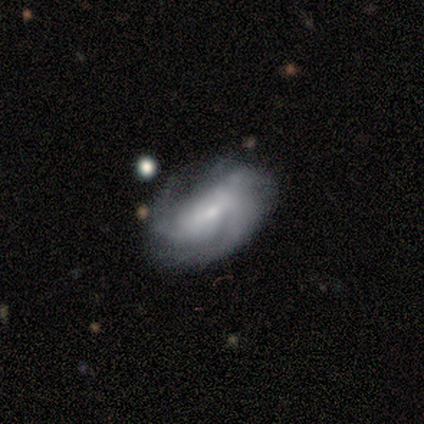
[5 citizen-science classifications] A featured or disk galaxy (60%) with no bar (100%), 1 (33%, tied with 3 and can't tell) medium (67%) spiral arms (100%) and a small central bulge (67%).

Vote fractions:
- Smooth or featured? featured or disk: 60% / smooth: 40% / star or artifact: 0%
- Edge-on disk? no: 100% / yes: 0%
- Bar? no: 100% / strong: 0% / weak: 0%
- Spiral arms? yes: 100% / no: 0%
- Spiral winding? medium: 67% / loose: 33% / tight: 0%
- Spiral arm count? 1: 33% (tied) / 3: 33% (tied) / can't tell: 33% (tied) / 2: 0% / 4: 0% / more than 4: 0%
- Bulge size? small: 67% / moderate: 33% / dominant: 0% / large: 0% / none: 0%
- Merging? none: 80% / major disturbance: 20% / minor disturbance: 0% / merger: 0%